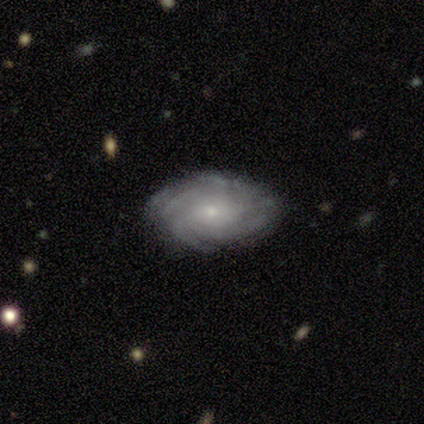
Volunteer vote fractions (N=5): This appears to be a featured or disk galaxy (100%) with no bar (80%), 3 (40%) tight (60%) spiral arms (100%) and a small central bulge (60%). Merging: none (80%).